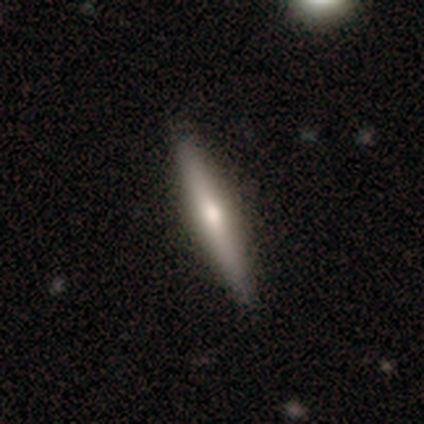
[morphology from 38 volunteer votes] Overall: smooth (53%; featured or disk 45%). How rounded: cigar-shaped (100%). Merging: none (92%).